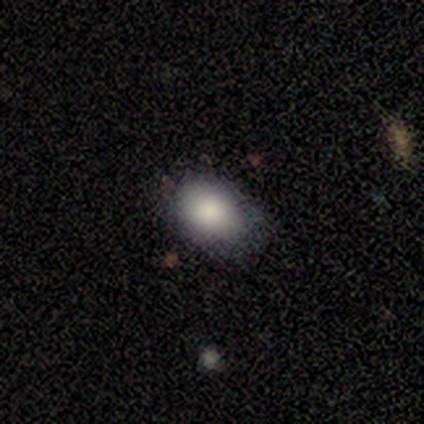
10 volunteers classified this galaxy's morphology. Volunteers were most divided on "merging": none: 60%, minor disturbance: 40%, major disturbance: 0%, merger: 0%. More confident: smooth or featured — smooth (100%); how rounded — in between (80%).